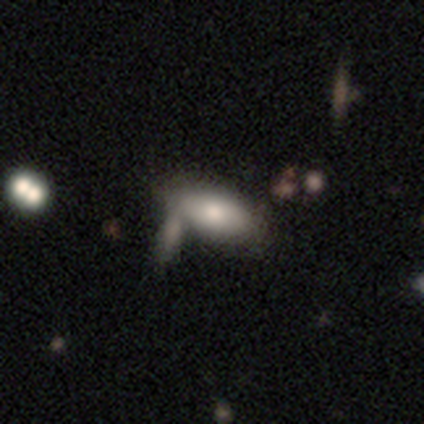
Morphology: type=smooth (60%); roundness=in between (100%); merging=none (60%).